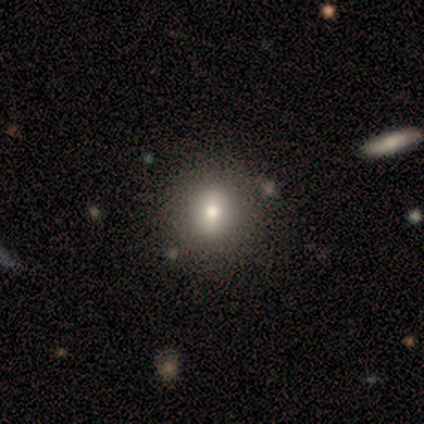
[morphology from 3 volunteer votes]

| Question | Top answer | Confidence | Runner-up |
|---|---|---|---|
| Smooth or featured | smooth | 67% | featured or disk (33%) |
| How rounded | round | 100% | — |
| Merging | none | 100% | — |